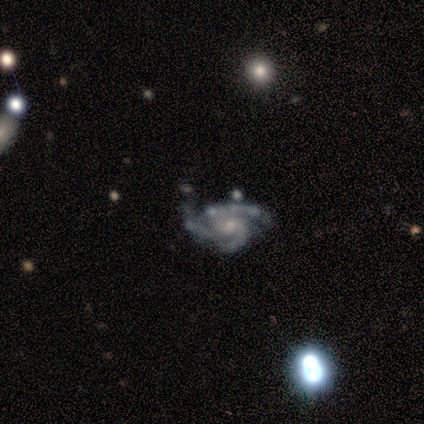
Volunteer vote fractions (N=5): Morphology: type=featured or disk (100%); edge-on=no (80%); bar=weak (50%, tied with no); spiral arms=yes (100%); winding=tight (75%); arm count=3 (75%); bulge=small (75%); merging=none (40%, tied with minor disturbance).